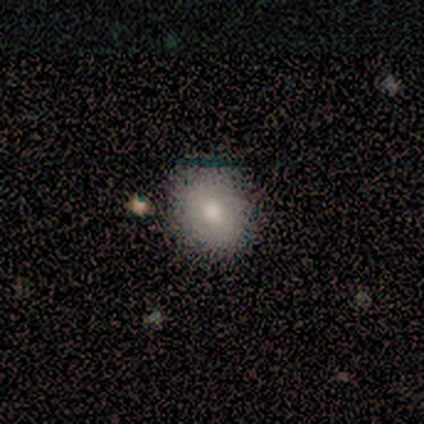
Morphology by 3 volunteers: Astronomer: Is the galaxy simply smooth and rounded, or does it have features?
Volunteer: smooth — 67%.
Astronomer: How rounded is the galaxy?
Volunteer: round — 100%.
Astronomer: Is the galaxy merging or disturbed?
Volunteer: none — 50%, tied with major disturbance at 50%.